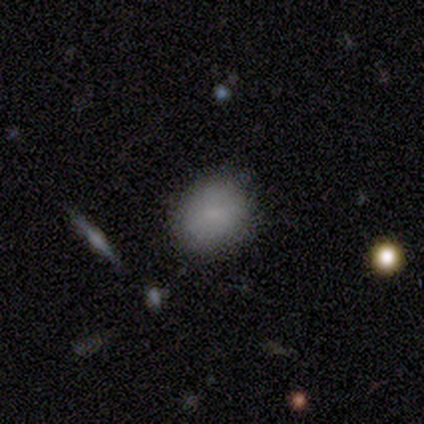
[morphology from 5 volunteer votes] smooth-or-featured: smooth: 80% | star or artifact: 20% | featured or disk: 0%
  how-rounded: round: 75% | in between: 25% | cigar-shaped: 0%
  merging: none: 75% | merger: 25% | minor disturbance: 0% | major disturbance: 0%